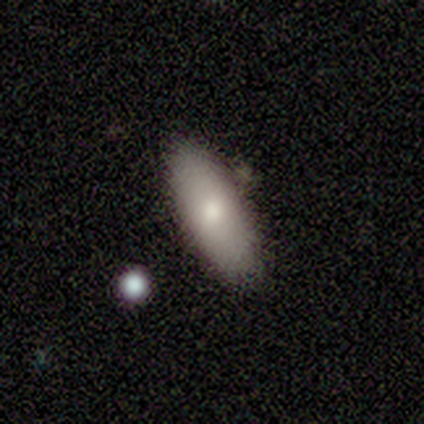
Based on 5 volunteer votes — Smooth or featured? smooth (100%)
How rounded? cigar-shaped (60%)
Merging? none (80%)